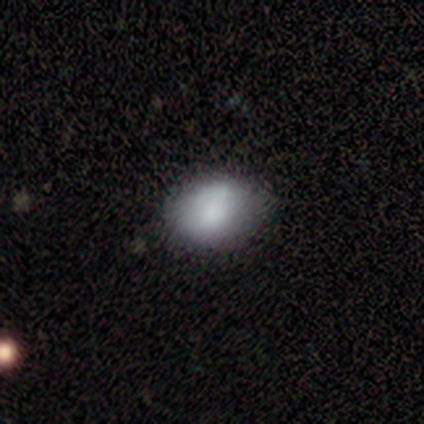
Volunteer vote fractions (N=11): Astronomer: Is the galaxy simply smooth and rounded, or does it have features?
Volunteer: smooth — 82%.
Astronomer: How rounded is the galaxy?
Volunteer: in between — 56% (runner-up: round, 33%).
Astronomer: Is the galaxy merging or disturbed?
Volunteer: none — 73%.